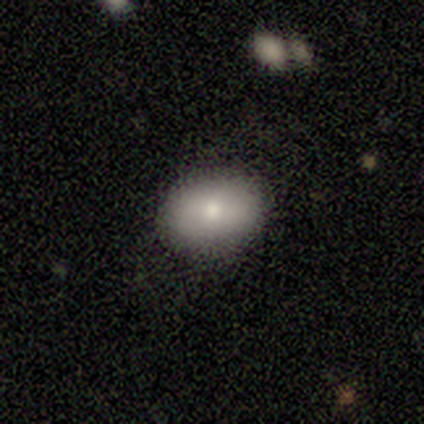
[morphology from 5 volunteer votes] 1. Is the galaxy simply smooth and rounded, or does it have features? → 100% smooth, 0% featured or disk, 0% star or artifact.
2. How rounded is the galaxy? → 80% in between, 20% round, 0% cigar-shaped.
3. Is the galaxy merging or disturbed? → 100% none, 0% minor disturbance, 0% major disturbance, 0% merger.